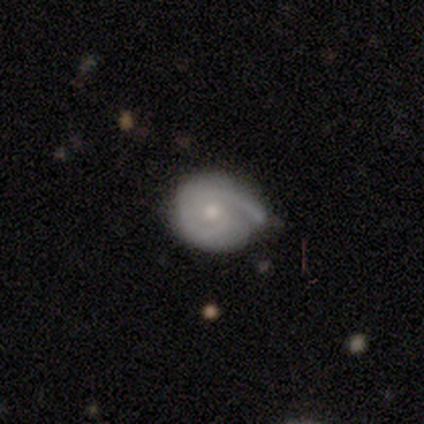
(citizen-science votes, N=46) This is likely a featured or disk galaxy (72%). It is clearly not viewed edge-on (100%). Bar: likely no (70%). Spiral arm pattern: clearly yes (97%). Spiral arm count: possibly 1 (47%, tied with 2). Spiral winding: likely tight (66%). Central bulge: possibly small (48%). Merging: marginally none (44%).